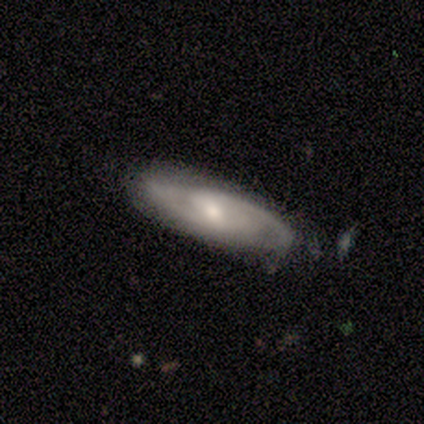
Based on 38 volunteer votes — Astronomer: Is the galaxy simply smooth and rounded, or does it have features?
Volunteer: featured or disk — 89%.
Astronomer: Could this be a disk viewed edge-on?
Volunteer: no — 68%.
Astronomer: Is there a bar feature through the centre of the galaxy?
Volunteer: weak — 65%.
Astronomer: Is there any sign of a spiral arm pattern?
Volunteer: yes — 96%.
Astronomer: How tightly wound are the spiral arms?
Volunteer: medium — 45% (runner-up: tight, 32%).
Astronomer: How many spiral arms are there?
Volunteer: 2 — 86%.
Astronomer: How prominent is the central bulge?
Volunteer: moderate — 43%, tied with small at 43%.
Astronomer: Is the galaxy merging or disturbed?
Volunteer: none — 67%.